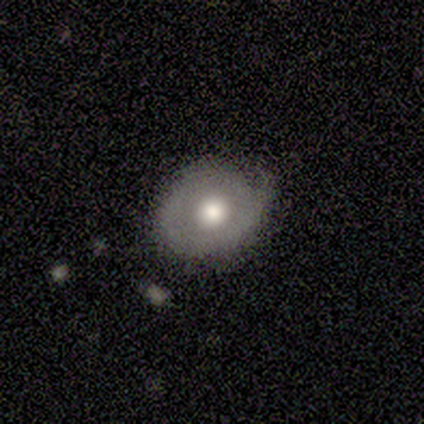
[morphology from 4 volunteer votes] type=smooth (75%); roundness=in between (67%); merging=none (75%).